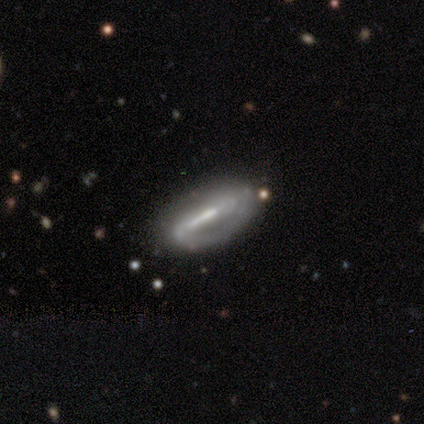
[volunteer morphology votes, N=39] Q: Smooth or featured?
A: featured or disk (79%); runner-up: smooth (13%)
Q: Edge-on disk?
A: no (84%); runner-up: yes (16%)
Q: Bar?
A: strong (77%); runner-up: weak (15%)
Q: Spiral arms?
A: yes (88%); runner-up: no (12%)
Q: Spiral winding?
A: tight (48%); runner-up: medium (30%)
Q: Spiral arm count?
A: 2 (43%); runner-up: 1 (30%)
Q: Bulge size?
A: moderate (50%); runner-up: small (31%)
Q: Merging?
A: none (75%); runner-up: minor disturbance (17%)